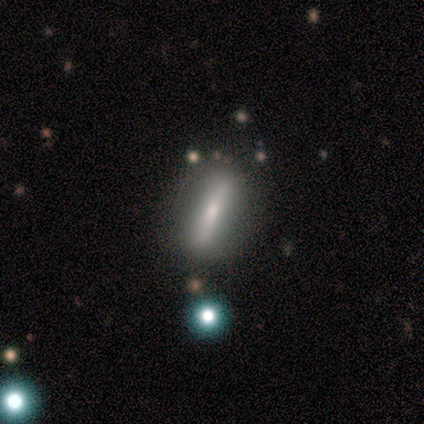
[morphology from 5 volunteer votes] Smooth or featured: featured or disk — 60% (smooth — 40%)
Edge-on disk: yes — 100%
Edge-on bulge: rounded — 67% (none — 33%)
Merging: none — 100%